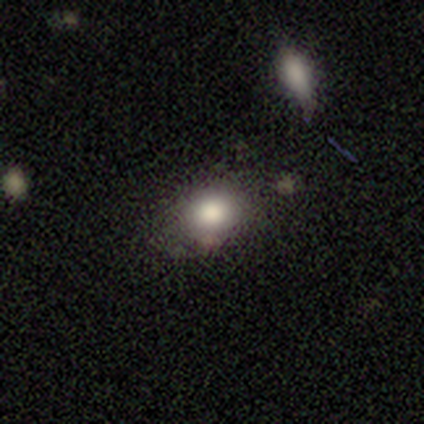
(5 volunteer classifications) This is clearly a smooth galaxy (80%). How rounded: clearly round (100%). Merging: clearly none (100%).